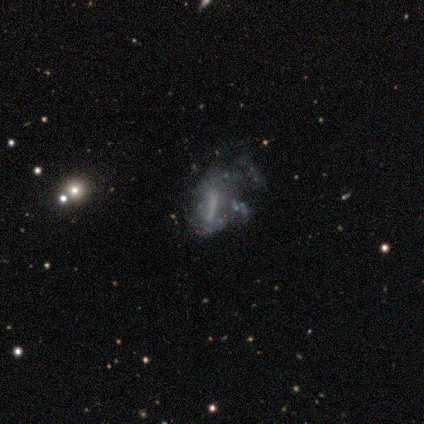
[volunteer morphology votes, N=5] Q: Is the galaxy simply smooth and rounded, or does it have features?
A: featured or disk — 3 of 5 (60%).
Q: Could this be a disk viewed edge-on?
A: no — 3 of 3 (100%).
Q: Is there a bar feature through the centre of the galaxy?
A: strong — 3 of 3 (100%).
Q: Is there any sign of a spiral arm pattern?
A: no — 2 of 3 (67%).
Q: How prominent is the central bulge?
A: large — 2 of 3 (67%).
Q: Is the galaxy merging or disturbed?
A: major disturbance — 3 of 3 (100%).